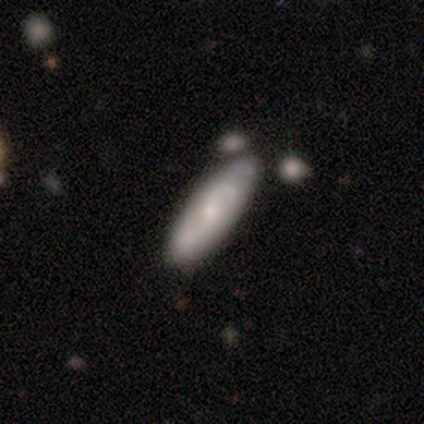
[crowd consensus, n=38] A featured or disk galaxy (55%) with no bar (67%), 2 (60%) medium (40%) spiral arms (83%) and a small central bulge (78%). Merging: none (42%).